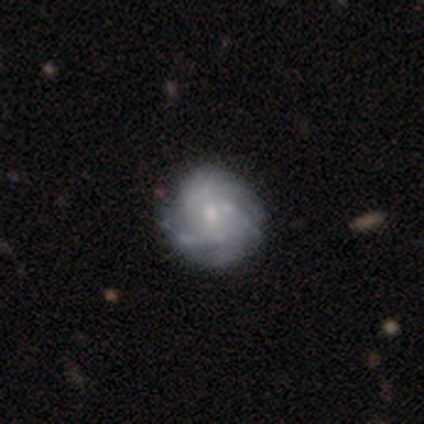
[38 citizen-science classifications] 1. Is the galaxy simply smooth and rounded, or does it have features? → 79% featured or disk, 11% smooth, 11% star or artifact.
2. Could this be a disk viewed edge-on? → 97% no, 3% yes.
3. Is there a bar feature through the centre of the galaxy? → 72% no, 24% weak, 3% strong.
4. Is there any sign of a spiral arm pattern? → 83% yes, 17% no.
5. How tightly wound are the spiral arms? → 54% medium, 38% tight, 8% loose.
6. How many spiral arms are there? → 46% can't tell, 25% 3, 17% more than 4, 8% 2, 4% 4, 0% 1.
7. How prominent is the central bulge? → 72% small, 24% moderate, 3% none, 0% dominant, 0% large.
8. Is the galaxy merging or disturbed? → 38% none, 18% minor disturbance, 6% major disturbance, 0% merger.